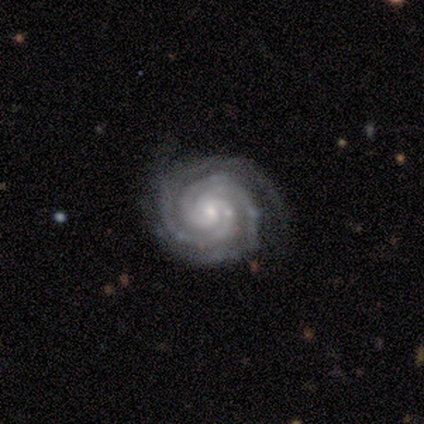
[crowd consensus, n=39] This is clearly a featured or disk galaxy (97%). It is clearly not viewed edge-on (100%). Bar: likely no (71%). Spiral arm pattern: clearly yes (100%). Spiral arm count: possibly 3 (50%). Spiral winding: clearly tight (84%). Central bulge: likely small (71%). Merging: clearly none (82%).